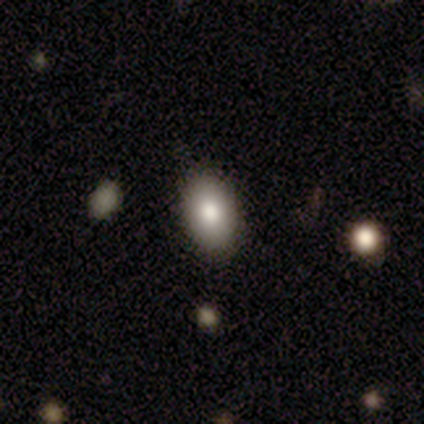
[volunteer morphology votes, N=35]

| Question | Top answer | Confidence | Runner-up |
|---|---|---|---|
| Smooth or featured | smooth | 71% | featured or disk (14%) |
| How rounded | in between | 92% | round (8%) |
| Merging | none | 90% | minor disturbance (10%) |